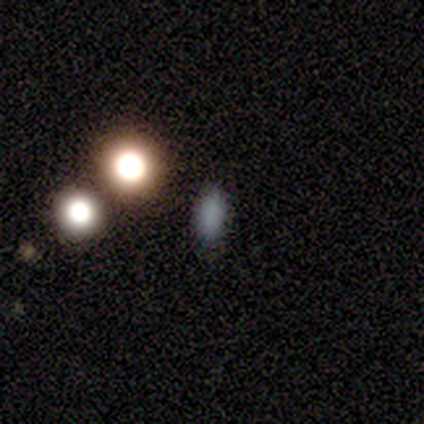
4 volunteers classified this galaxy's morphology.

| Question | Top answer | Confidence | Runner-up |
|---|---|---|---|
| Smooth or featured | smooth | 75% | star or artifact (25%) |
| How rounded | in between | 67% | round (33%) |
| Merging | none | 67% | minor disturbance (33%) |